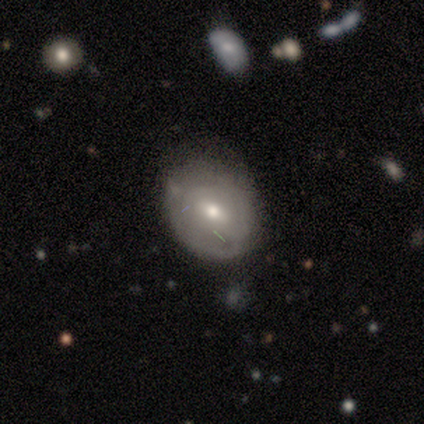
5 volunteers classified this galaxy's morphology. Q: Smooth or featured?
A: featured or disk (80%); runner-up: smooth (20%)
Q: Edge-on disk?
A: no (100%)
Q: Bar?
A: weak (50%); runner-up: strong (25%)
Q: Spiral arms?
A: yes (50%); tied with: no (50%)
Q: Spiral winding?
A: tight (100%)
Q: Spiral arm count?
A: can't tell (100%)
Q: Bulge size?
A: small (75%); runner-up: moderate (25%)
Q: Merging?
A: none (80%); runner-up: minor disturbance (20%)